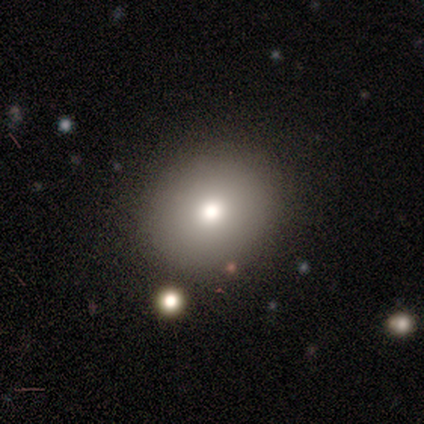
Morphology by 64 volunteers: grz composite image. It shows a smooth galaxy with no disk features (88%) that is round (70%). Merging: none (66%).